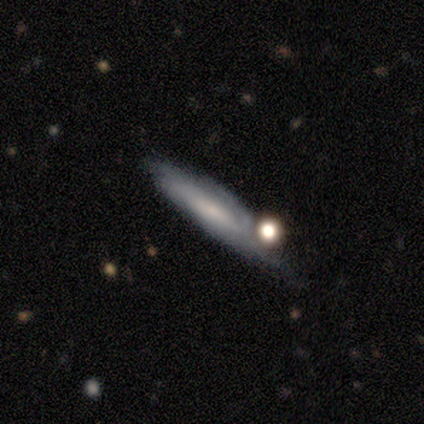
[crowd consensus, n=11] Morphology: type=smooth (45%, tied with featured or disk); roundness=cigar-shaped (100%); merging=none (40%).